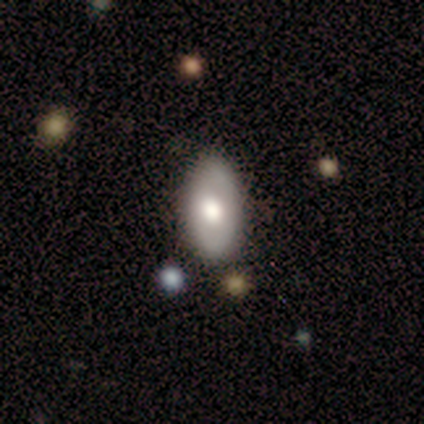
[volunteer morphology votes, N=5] Volunteers were most divided on "bulge size" (3-way tie): large: 33%, moderate: 33%, small: 33%, dominant: 0%, none: 0%. More confident: edge-on disk — no (100%); bar — no (100%); spiral arms — no (100%); merging — none (80%); smooth or featured — featured or disk (60%).